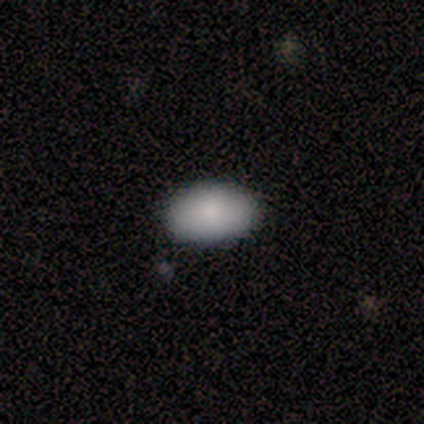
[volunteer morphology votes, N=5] Smooth or featured? smooth (100%)
How rounded? in between (100%)
Merging? none (100%)